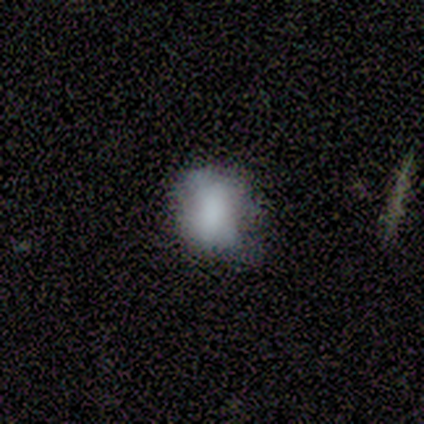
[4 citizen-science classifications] This is clearly a smooth galaxy (100%). How rounded: possibly round (50%). Merging: possibly none (50%).